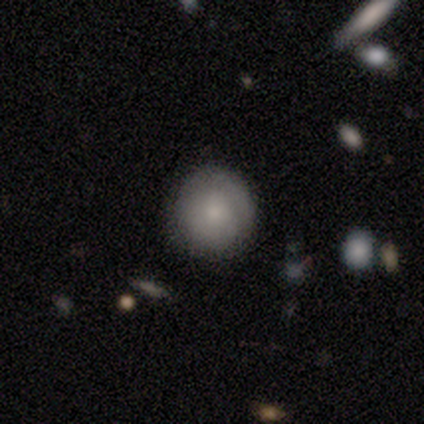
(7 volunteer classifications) Morphology: type=smooth (57%); roundness=round (100%); merging=none (100%).